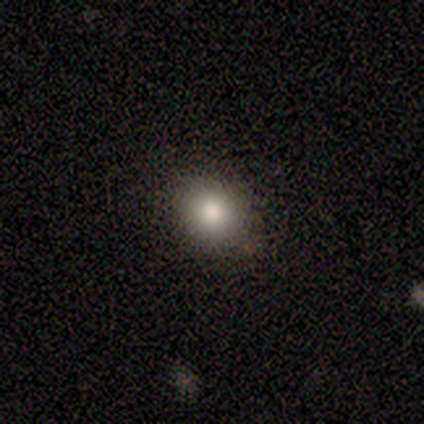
Morphology: type=smooth (100%); roundness=round (80%); merging=none (100%).